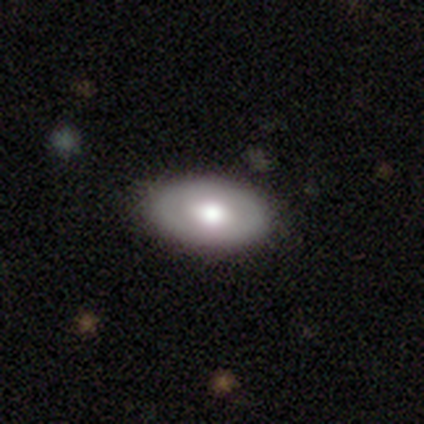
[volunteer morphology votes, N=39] smooth_or_featured: smooth (p=0.56) [alt: featured or disk p=0.41]
how_rounded: in between (p=0.95) [alt: round p=0.05]
merging: none (p=0.66) [alt: minor disturbance p=0.08]